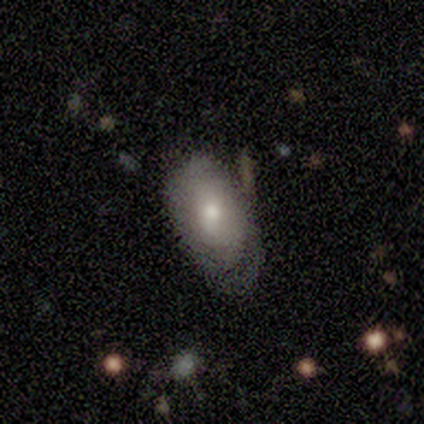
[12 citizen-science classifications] Smooth or featured? smooth (50%, tied with featured or disk)
How rounded? in between (100%)
Merging? minor disturbance (50%)